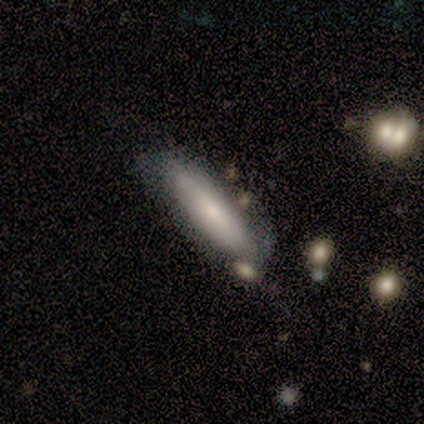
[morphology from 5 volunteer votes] type=featured or disk (60%); edge-on=yes (67%); edge-on bulge=rounded (100%); merging=minor disturbance (60%).